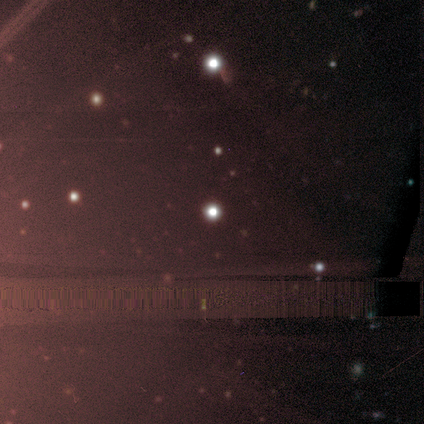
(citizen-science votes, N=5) This is clearly a star or artifact rather than a galaxy (80%).